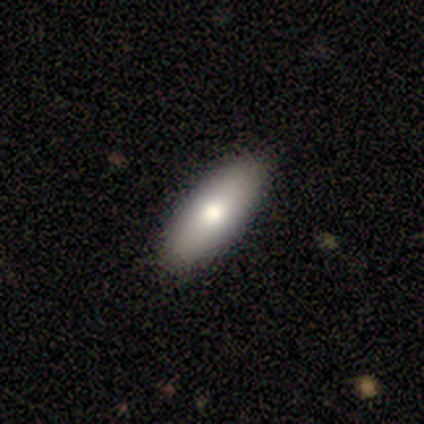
Smooth or featured?
  - smooth: 100% *
  - featured or disk: 0%
  - star or artifact: 0%
How rounded?
  - in between: 75% *
  - cigar-shaped: 25%
  - round: 0%
Merging?
  - none: 100% *
  - minor disturbance: 0%
  - major disturbance: 0%
  - merger: 0%